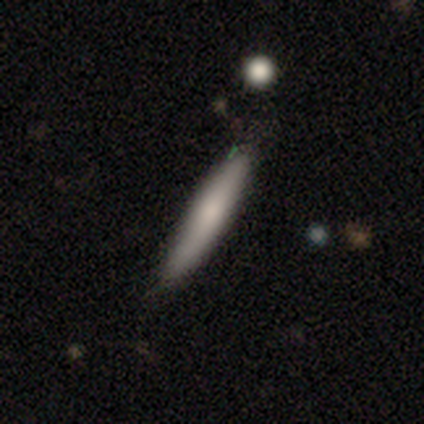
Morphology: type=smooth (100%); roundness=cigar-shaped (100%); merging=none (100%).